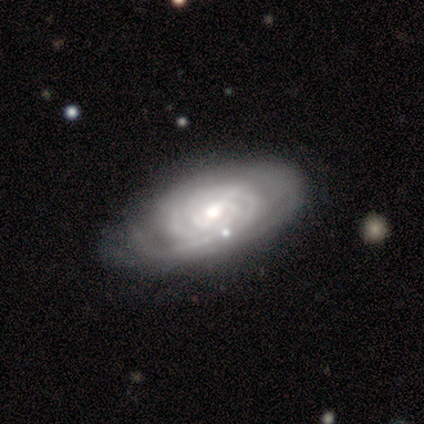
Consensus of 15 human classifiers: smooth-or-featured: featured or disk: 87% | smooth: 13% | star or artifact: 0%
  disk-edge-on: no: 100% | yes: 0%
    bar: no: 62% | weak: 23% | strong: 15%
    has-spiral-arms: yes: 92% | no: 8%
      spiral-winding: tight: 58% | medium: 33% | loose: 8%
      spiral-arm-count: can't tell: 58% | 2: 17% | 3: 17% | more than 4: 8% | 1: 0% | 4: 0%
    bulge-size: moderate: 54% | small: 31% | large: 15% | dominant: 0% | none: 0%
  merging: none: 67% | minor disturbance: 20% | major disturbance: 7% | merger: 7%